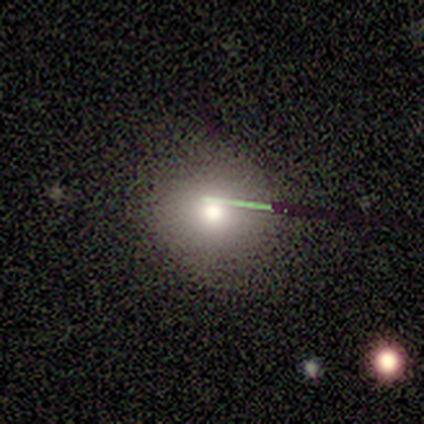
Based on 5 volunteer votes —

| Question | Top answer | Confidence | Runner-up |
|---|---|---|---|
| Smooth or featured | smooth | 60% | star or artifact (40%) |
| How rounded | round | 100% | — |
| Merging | none | 100% | — |